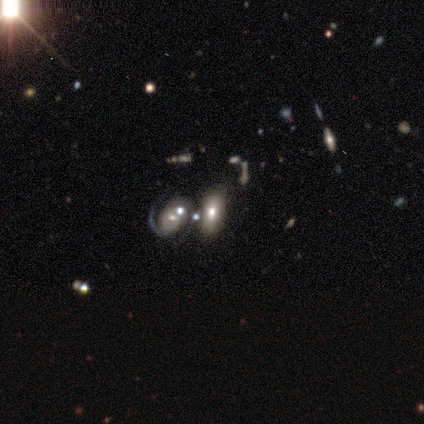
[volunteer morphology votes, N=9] smooth_or_featured: smooth (p=0.78) [alt: featured or disk p=0.11]
how_rounded: in between (p=1.00)
merging: none (p=0.62) [alt: merger p=0.25]